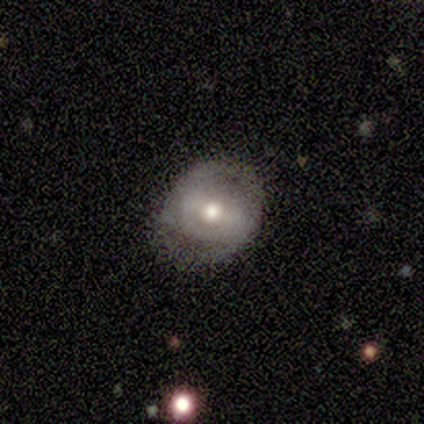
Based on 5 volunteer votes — Morphology: type=featured or disk (60%); edge-on=no (100%); bar=no (67%); spiral arms=no (100%); bulge=moderate (100%); merging=none (100%).